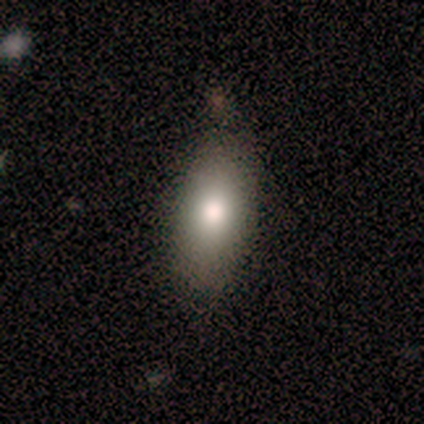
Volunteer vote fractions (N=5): This is clearly a smooth galaxy (100%). How rounded: clearly in between (100%). Merging: clearly none (80%).